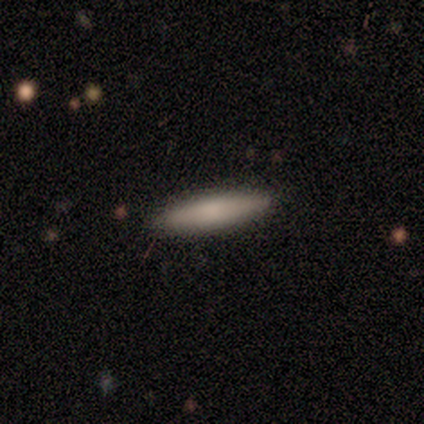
Consensus on every question: smooth or featured — smooth (100%); how rounded — cigar-shaped (100%); merging — none (100%).